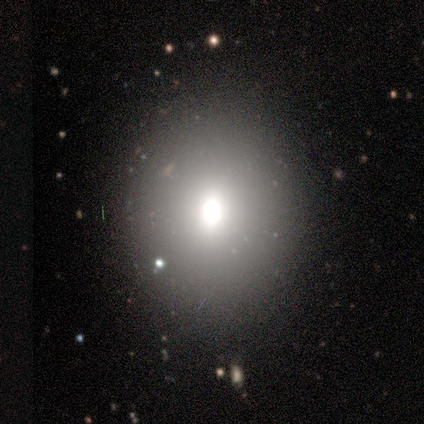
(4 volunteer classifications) This appears to be a smooth galaxy with no disk features (75%) that is in between round and cigar-shaped (67%). Merging: none (67%).